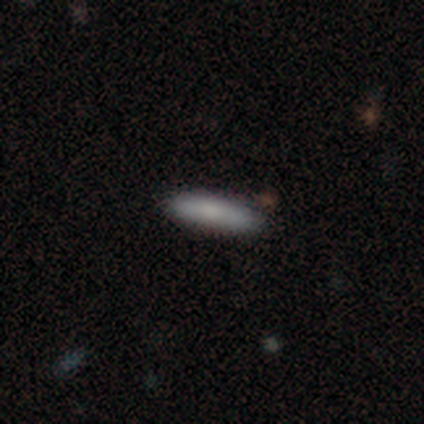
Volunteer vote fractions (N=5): smooth_or_featured: smooth (p=0.80) [alt: featured or disk p=0.20]
how_rounded: in between (p=0.50) [tied with: cigar-shaped p=0.50]
merging: none (p=0.80) [alt: minor disturbance p=0.20]